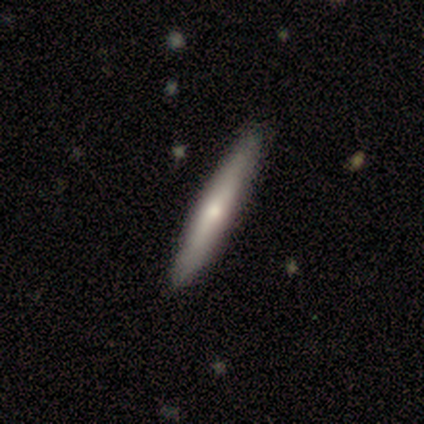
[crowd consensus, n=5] Smooth or featured?
  - smooth: 80% *
  - featured or disk: 20%
  - star or artifact: 0%
How rounded?
  - cigar-shaped: 100% *
  - round: 0%
  - in between: 0%
Merging?
  - none: 100% *
  - minor disturbance: 0%
  - major disturbance: 0%
  - merger: 0%